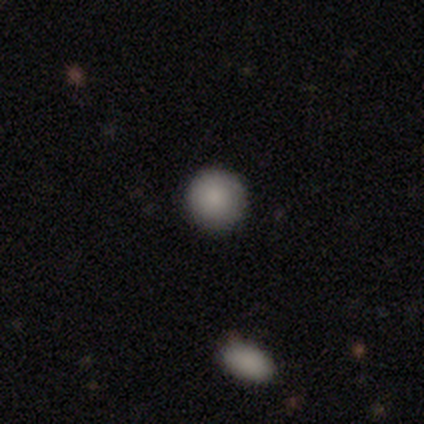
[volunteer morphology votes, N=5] smooth_or_featured: smooth (p=0.80) [alt: star or artifact p=0.20]
how_rounded: round (p=1.00)
merging: none (p=1.00)